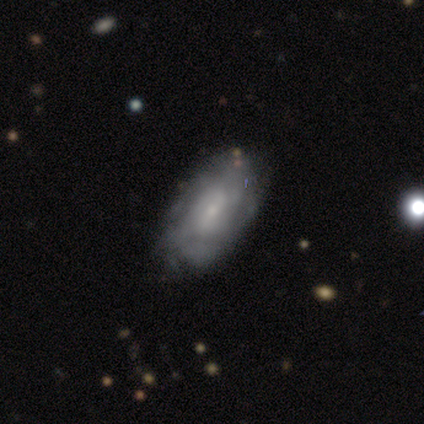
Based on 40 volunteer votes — Smooth or featured? 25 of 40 (62%) said featured or disk. Edge-on disk? 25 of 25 (100%) said no. Bar? 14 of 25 (56%) said no. Spiral arms? 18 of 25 (72%) said yes. Spiral winding? 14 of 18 (78%) said tight. Spiral arm count? 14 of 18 (78%) said can't tell. Bulge size? 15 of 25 (60%) said small. Merging? 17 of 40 (42%) said none.